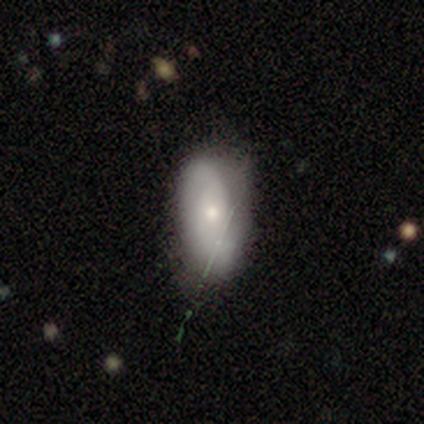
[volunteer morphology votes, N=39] A featured or disk galaxy (62%) with no bar (71%), 2 (67%) loose (50%) spiral arms (86%) and a moderate central bulge (48%). Merging: none (56%).